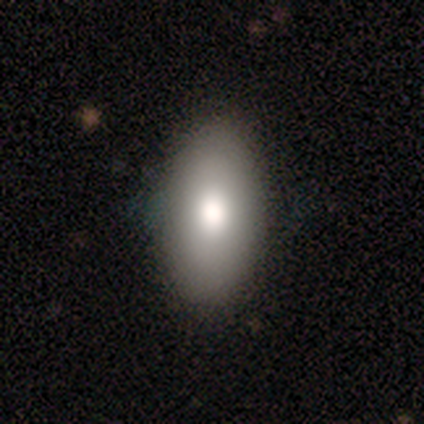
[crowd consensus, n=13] A smooth galaxy with no disk features (69%) that is in between round and cigar-shaped (100%). Merging: none (92%).